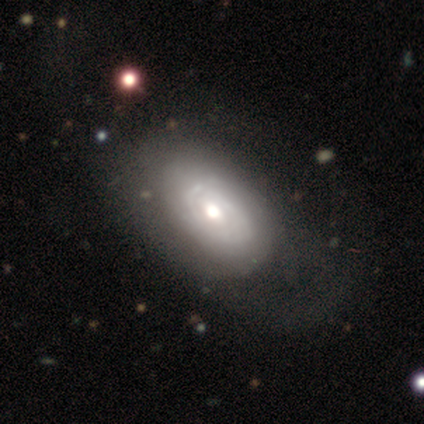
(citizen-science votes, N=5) Smooth or featured? 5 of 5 (100%) said featured or disk. Edge-on disk? 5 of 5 (100%) said no. Bar? 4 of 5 (80%) said no. Spiral arms? 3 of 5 (60%) said yes. Spiral winding? 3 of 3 (100%) said tight. Spiral arm count? 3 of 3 (100%) said 2. Bulge size? 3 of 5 (60%) said moderate. Merging? 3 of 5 (60%) said none.